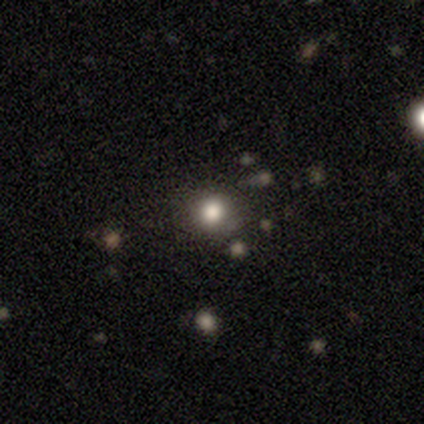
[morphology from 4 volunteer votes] This is likely a smooth galaxy (75%). How rounded: clearly round (100%). Merging: likely none (67%).